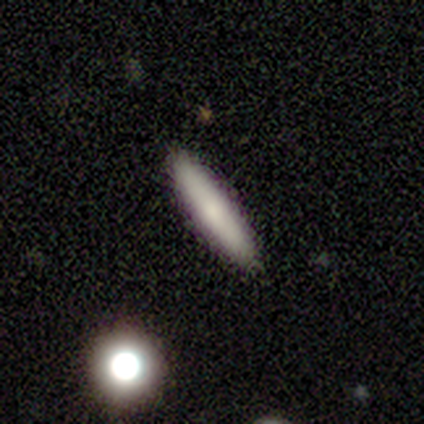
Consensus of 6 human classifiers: This is likely a smooth galaxy (67%). How rounded: clearly cigar-shaped (100%). Merging: clearly none (83%).